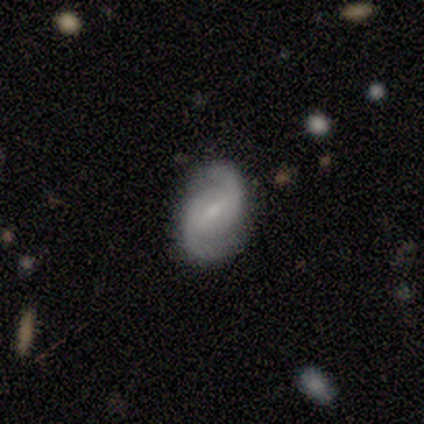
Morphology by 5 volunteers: Q: Smooth or featured?
A: featured or disk (100%)
Q: Edge-on disk?
A: no (100%)
Q: Bar?
A: weak (60%); runner-up: strong (20%)
Q: Spiral arms?
A: yes (100%)
Q: Spiral winding?
A: tight (40%); tied with: loose (40%)
Q: Spiral arm count?
A: 2 (100%)
Q: Bulge size?
A: small (60%); runner-up: moderate (20%)
Q: Merging?
A: none (60%); runner-up: minor disturbance (40%)